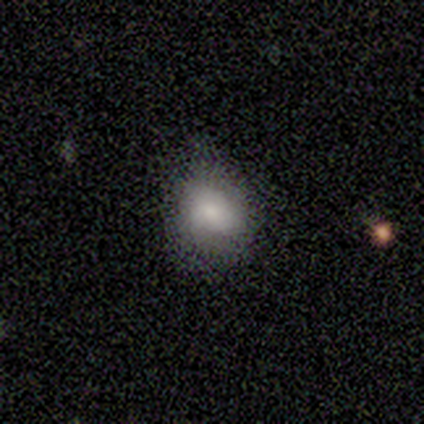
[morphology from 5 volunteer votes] Q: Smooth or featured?
A: smooth (60%); runner-up: star or artifact (40%)
Q: How rounded?
A: round (67%); runner-up: in between (33%)
Q: Merging?
A: minor disturbance (67%); runner-up: none (33%)